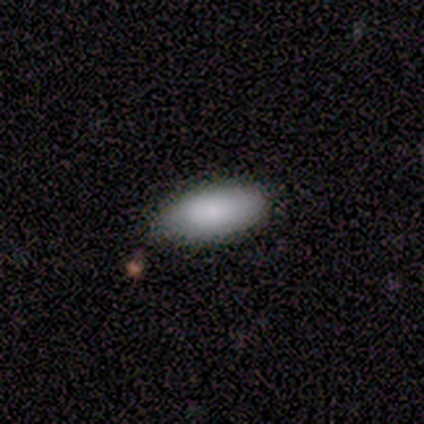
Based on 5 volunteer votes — smooth 100%, featured or disk 0%, star or artifact 0%. Down the decision tree: how rounded — in between (100%); merging — none (100%).